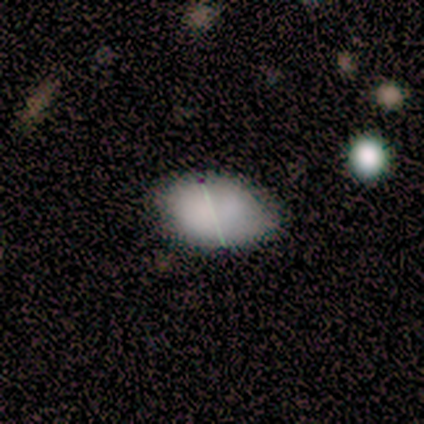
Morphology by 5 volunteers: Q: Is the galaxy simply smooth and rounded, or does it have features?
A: smooth — 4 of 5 (80%).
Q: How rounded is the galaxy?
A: in between — 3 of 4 (75%).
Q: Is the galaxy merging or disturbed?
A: none — 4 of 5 (80%).